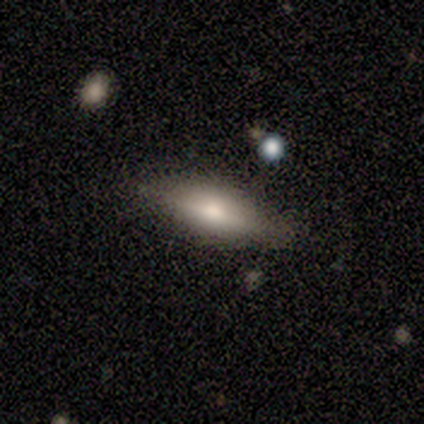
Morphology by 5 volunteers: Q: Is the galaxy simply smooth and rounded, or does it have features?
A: featured or disk — 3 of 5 (60%).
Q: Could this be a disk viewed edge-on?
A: yes — 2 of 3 (67%).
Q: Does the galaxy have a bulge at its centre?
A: rounded — 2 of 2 (100%).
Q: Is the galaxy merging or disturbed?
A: none — 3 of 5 (60%).